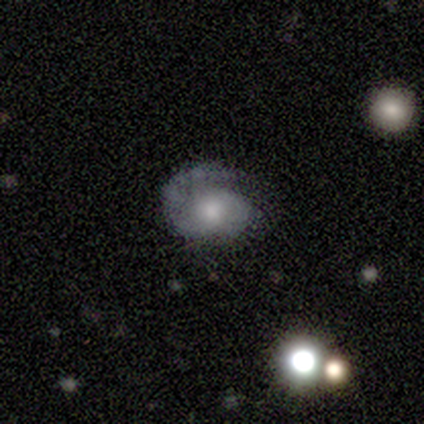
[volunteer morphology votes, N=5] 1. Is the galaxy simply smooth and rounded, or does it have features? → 80% featured or disk, 20% smooth, 0% star or artifact.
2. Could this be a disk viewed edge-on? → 100% no, 0% yes.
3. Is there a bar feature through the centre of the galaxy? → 100% no, 0% strong, 0% weak.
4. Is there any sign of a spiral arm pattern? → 100% yes, 0% no.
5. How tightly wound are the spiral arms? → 100% tight, 0% medium, 0% loose.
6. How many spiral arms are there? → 100% 1, 0% 2, 0% 3, 0% 4, 0% more than 4, 0% can't tell.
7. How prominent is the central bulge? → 75% moderate, 25% small, 0% dominant, 0% large, 0% none.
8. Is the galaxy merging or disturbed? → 60% none, 20% minor disturbance, 20% major disturbance, 0% merger.